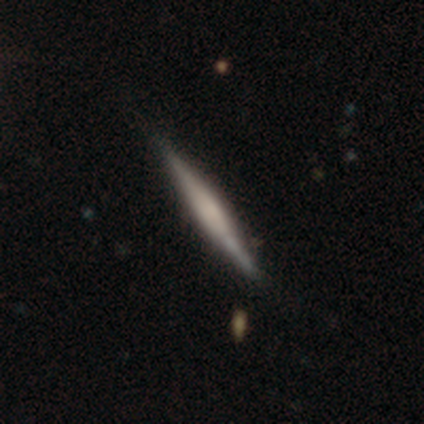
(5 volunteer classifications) Overall: featured or disk (60%; smooth 40%). Edge-on disk: yes (100%). Edge-on bulge: rounded (67%; none 33%). Merging: none (60%; minor disturbance 40%).